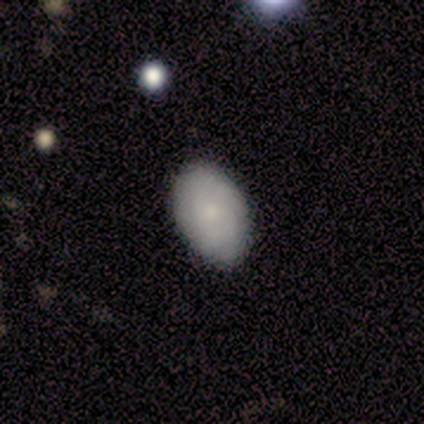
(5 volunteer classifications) This is clearly a smooth galaxy (80%). How rounded: clearly in between (100%). Merging: clearly none (80%).